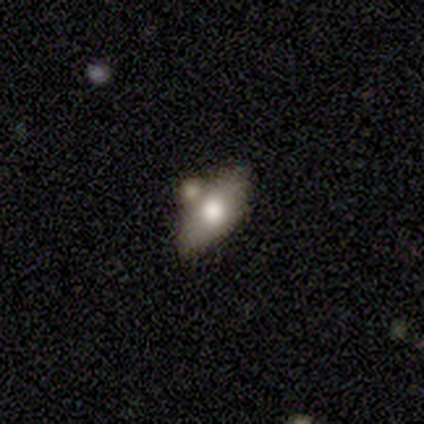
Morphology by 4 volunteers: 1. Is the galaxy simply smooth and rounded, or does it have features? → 50% smooth, 25% featured or disk, 25% star or artifact.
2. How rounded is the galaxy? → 100% in between, 0% round, 0% cigar-shaped.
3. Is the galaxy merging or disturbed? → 67% none, 33% merger, 0% minor disturbance, 0% major disturbance.